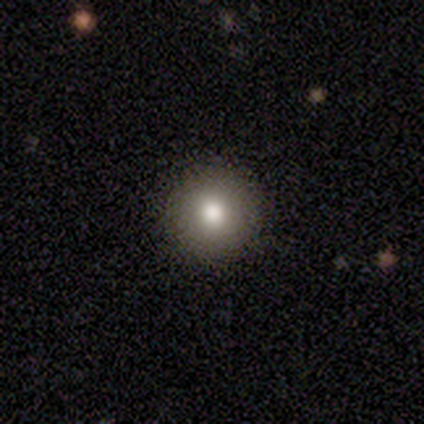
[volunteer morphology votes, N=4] Overall: smooth (75%). How rounded: round (100%). Merging: none (100%).